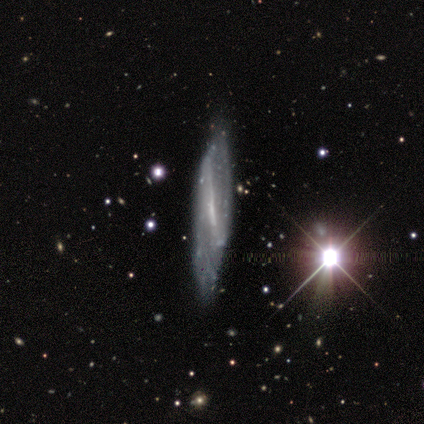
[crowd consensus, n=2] A smooth galaxy with no disk features (50%, tied with featured or disk) that is in between round and cigar-shaped (100%). Merging: none (50%, tied with minor disturbance).